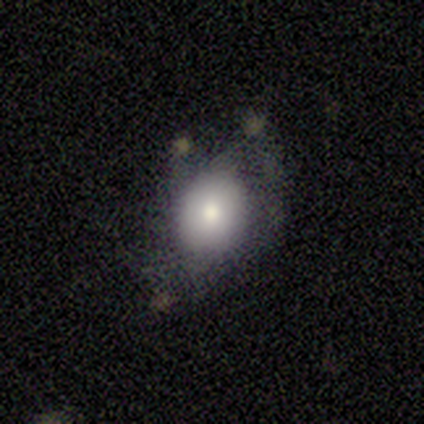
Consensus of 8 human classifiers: Q: Smooth or featured?
A: smooth (88%); runner-up: featured or disk (12%)
Q: How rounded?
A: in between (86%); runner-up: round (14%)
Q: Merging?
A: minor disturbance (50%); runner-up: none (38%)